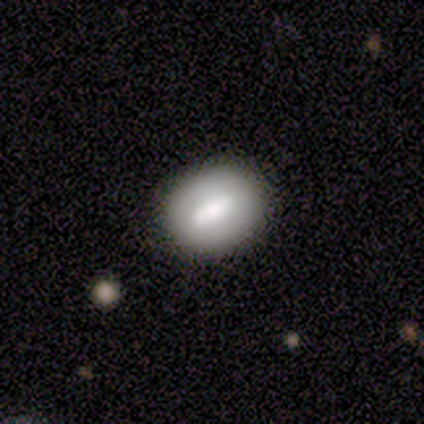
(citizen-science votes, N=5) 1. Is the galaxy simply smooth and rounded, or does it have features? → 60% smooth, 20% featured or disk, 20% star or artifact.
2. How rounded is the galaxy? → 33% round (tied), 33% in between (tied), 33% cigar-shaped (tied).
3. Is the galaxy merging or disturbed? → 100% none, 0% minor disturbance, 0% major disturbance, 0% merger.